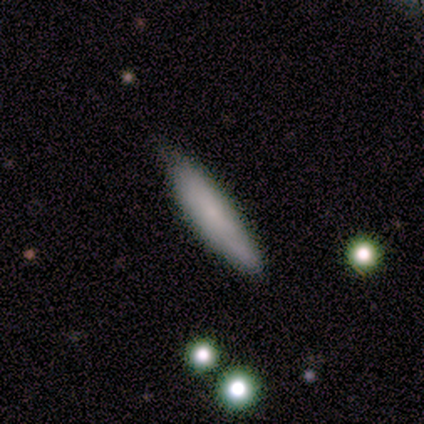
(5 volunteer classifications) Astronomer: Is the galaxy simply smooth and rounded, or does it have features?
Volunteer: smooth — 80%.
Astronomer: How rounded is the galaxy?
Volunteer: cigar-shaped — 75%.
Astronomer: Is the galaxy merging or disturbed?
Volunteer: none — 75%.